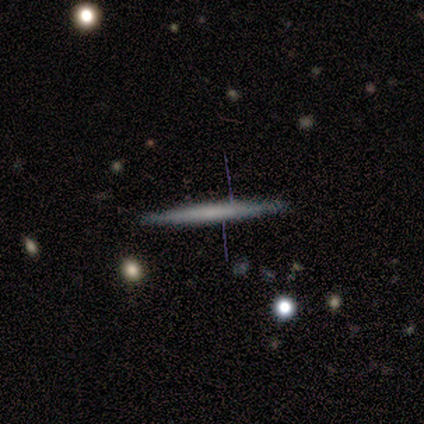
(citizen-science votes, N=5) This is clearly a featured or disk galaxy (80%). It is likely viewed edge-on (75%). Edge-on bulge: clearly none (100%). Merging: likely none (60%).